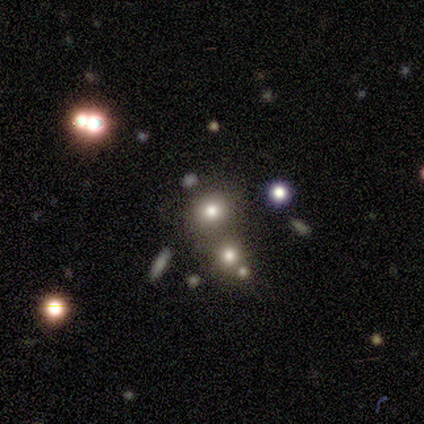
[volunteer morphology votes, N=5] Smooth or featured? smooth (80%)
How rounded? round (100%)
Merging? none (60%)